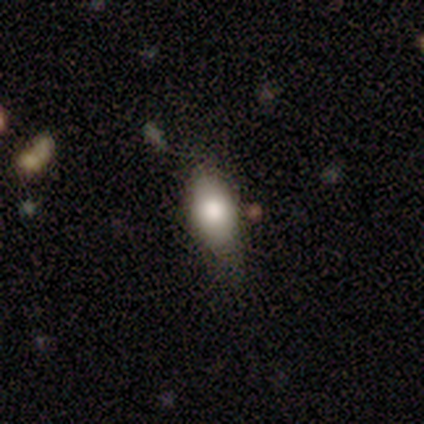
smooth-or-featured: smooth: 84% | star or artifact: 11% | featured or disk: 5%
  how-rounded: in between: 87% | cigar-shaped: 13% | round: 0%
  merging: none: 67% | minor disturbance: 30% | major disturbance: 3% | merger: 0%